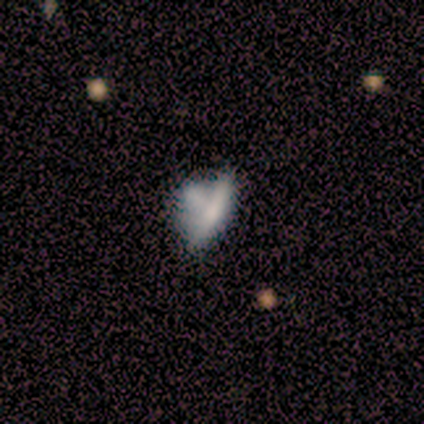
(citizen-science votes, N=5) A smooth galaxy with no disk features (60%) that is in between round and cigar-shaped (100%). Merging: major disturbance (40%, tied with merger).